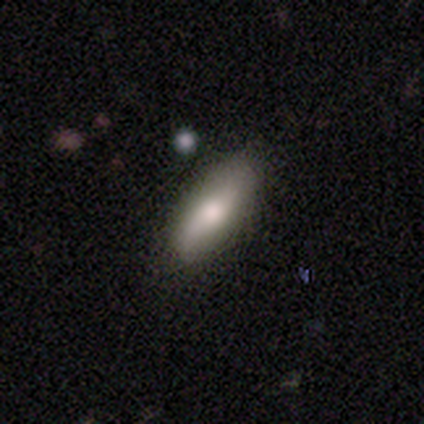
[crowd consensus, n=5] Smooth or featured? featured or disk (80%)
Edge-on disk? yes (100%)
Edge-on bulge? rounded (100%)
Merging? none (100%)